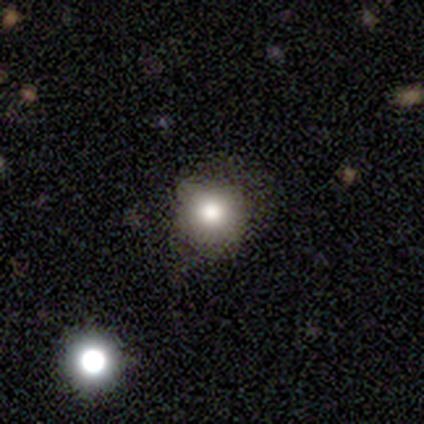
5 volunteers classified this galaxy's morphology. This is clearly a smooth galaxy (80%). How rounded: clearly round (100%). Merging: clearly none (100%).